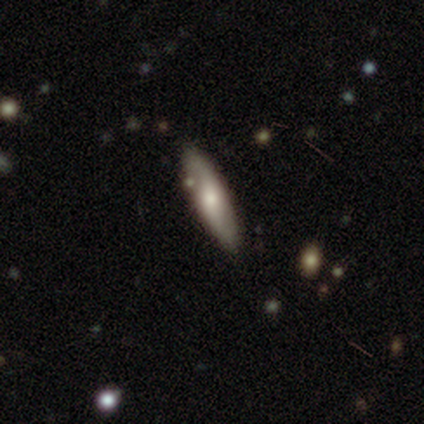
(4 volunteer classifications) Smooth or featured? smooth (75%)
How rounded? cigar-shaped (100%)
Merging? none (50%)